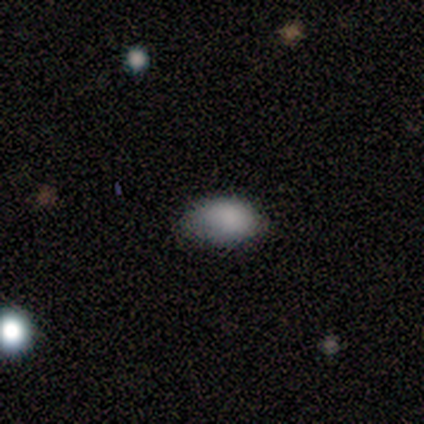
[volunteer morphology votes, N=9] smooth-or-featured: smooth: 56% | star or artifact: 44% | featured or disk: 0%
  how-rounded: in between: 100% | round: 0% | cigar-shaped: 0%
  merging: none: 60% | minor disturbance: 40% | major disturbance: 0% | merger: 0%